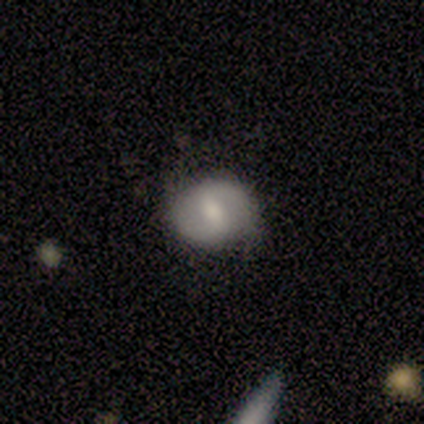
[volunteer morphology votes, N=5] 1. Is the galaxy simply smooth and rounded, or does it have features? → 80% featured or disk, 20% smooth, 0% star or artifact.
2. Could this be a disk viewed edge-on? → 100% no, 0% yes.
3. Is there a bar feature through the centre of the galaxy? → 50% strong (tied), 50% weak (tied), 0% no.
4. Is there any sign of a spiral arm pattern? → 75% yes, 25% no.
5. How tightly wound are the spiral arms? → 33% tight (tied), 33% medium (tied), 33% loose (tied).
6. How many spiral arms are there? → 100% 2, 0% 1, 0% 3, 0% 4, 0% more than 4, 0% can't tell.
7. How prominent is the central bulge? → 50% moderate, 25% small, 25% none, 0% dominant, 0% large.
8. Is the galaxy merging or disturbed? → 80% none, 20% minor disturbance, 0% major disturbance, 0% merger.